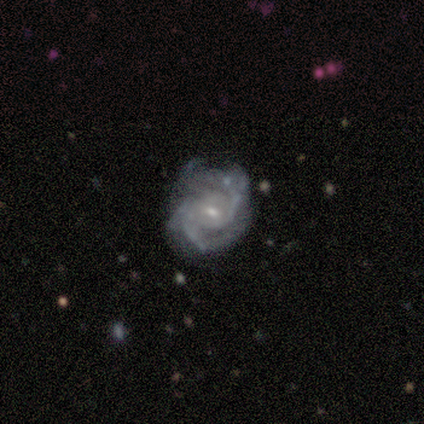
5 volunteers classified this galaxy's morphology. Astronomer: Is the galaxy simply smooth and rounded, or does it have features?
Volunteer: featured or disk — 100%.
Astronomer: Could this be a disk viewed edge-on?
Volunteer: no — 100%.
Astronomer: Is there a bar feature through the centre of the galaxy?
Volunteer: no — 60% (runner-up: weak, 40%).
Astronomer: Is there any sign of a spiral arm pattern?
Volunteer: yes — 100%.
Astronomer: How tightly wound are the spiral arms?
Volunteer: tight — 60% (runner-up: medium, 40%).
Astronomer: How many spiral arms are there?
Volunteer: can't tell — 60%.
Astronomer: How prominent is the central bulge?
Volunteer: small — 60% (runner-up: moderate, 40%).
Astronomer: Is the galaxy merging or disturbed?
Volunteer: minor disturbance — 60%.